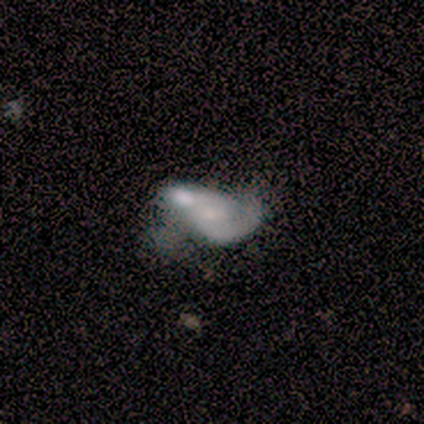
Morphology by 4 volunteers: A featured or disk galaxy (75%) with no bar (67%), 2 (67%) tight (67%) spiral arms (100%) and a small central bulge (67%).

Vote fractions:
- Smooth or featured? featured or disk: 75% / smooth: 25% / star or artifact: 0%
- Edge-on disk? no: 100% / yes: 0%
- Bar? no: 67% / weak: 33% / strong: 0%
- Spiral arms? yes: 100% / no: 0%
- Spiral winding? tight: 67% / medium: 33% / loose: 0%
- Spiral arm count? 2: 67% / 1: 33% / 3: 0% / 4: 0% / more than 4: 0% / can't tell: 0%
- Bulge size? small: 67% / none: 33% / dominant: 0% / large: 0% / moderate: 0%
- Merging? none: 75% / merger: 25% / minor disturbance: 0% / major disturbance: 0%